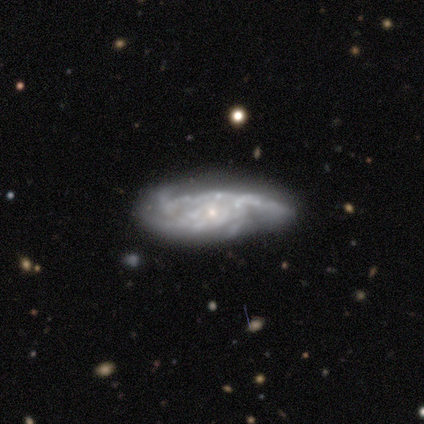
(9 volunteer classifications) This is clearly a featured or disk galaxy (100%). It is clearly not viewed edge-on (89%). Bar: clearly no (88%). Spiral arm pattern: likely yes (75%). Spiral arm count: marginally 3 (33%, tied with 4 and can't tell). Spiral winding: likely medium (67%). Central bulge: clearly small (88%). Merging: marginally major disturbance (44%).